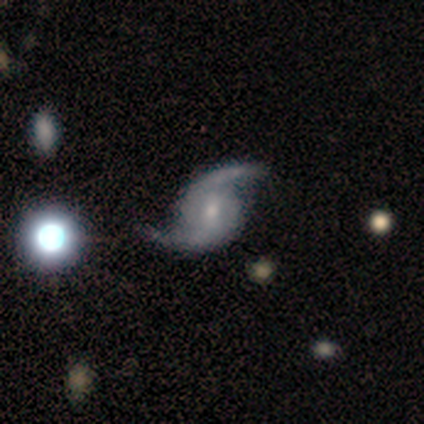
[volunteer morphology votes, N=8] Overall: featured or disk (100%). Edge-on disk: no (100%). Bar: no (88%). Spiral arms: yes (100%). Spiral arm count: 2 (100%). Spiral winding: medium (50%; loose 38%). Bulge size: moderate (50%, tied with small). Merging: none (75%).